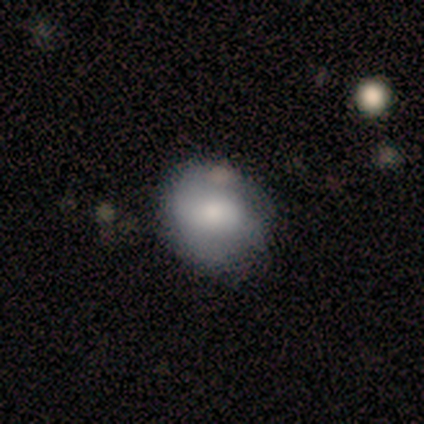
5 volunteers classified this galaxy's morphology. This appears to be a featured or disk galaxy (60%) with a weak bar (50%, tied with no), no spiral arms (100%) and a small central bulge (100%). Merging: none (50%, tied with minor disturbance).